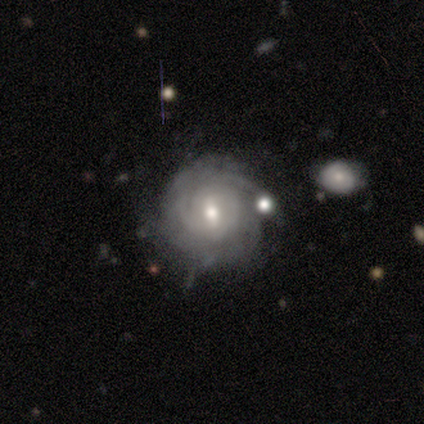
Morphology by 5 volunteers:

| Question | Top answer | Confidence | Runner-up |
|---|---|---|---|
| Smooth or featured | featured or disk | 100% | — |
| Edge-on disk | no | 100% | — |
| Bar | weak | 40% | tied: no (40%) |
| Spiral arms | yes | 100% | — |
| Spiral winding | tight | 100% | — |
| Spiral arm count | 3 | 40% | tied: more than 4 (40%) |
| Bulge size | moderate | 100% | — |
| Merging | none | 100% | — |